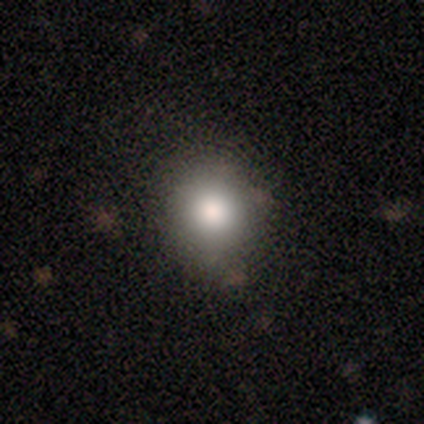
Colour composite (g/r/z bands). It shows a smooth galaxy with no disk features (87%) that is round (88%). Merging: none (89%).